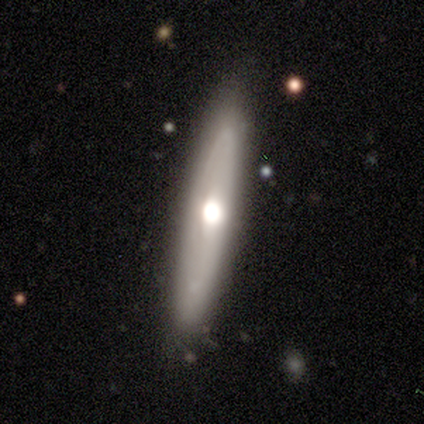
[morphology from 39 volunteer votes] Smooth or featured: smooth — 54% (featured or disk — 44%)
How rounded: cigar-shaped — 86% (in between — 14%)
Merging: none — 82% (minor disturbance — 16%)